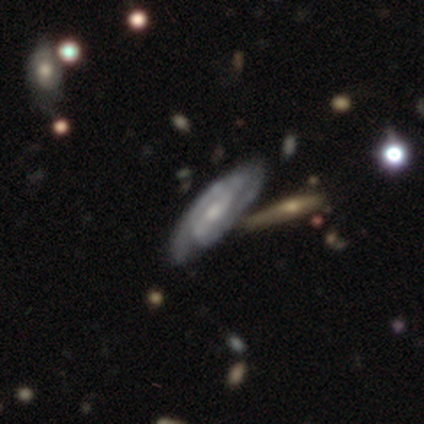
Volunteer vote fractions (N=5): This is clearly a featured or disk galaxy (100%). It is clearly not viewed edge-on (100%). Bar: marginally weak (40%, tied with no). Spiral arm pattern: clearly yes (100%). Spiral arm count: clearly 2 (80%). Spiral winding: likely tight (60%). Central bulge: likely moderate (60%). Merging: likely none (60%).